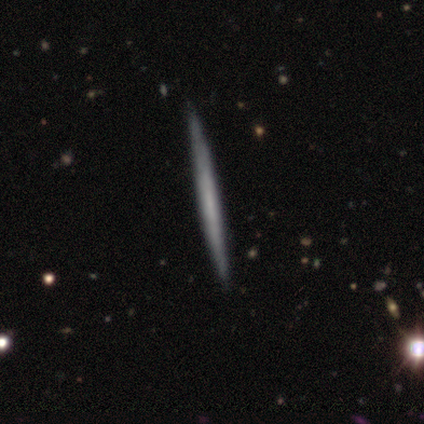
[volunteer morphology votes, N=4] Smooth or featured?
  - featured or disk: 75% *
  - smooth: 25%
  - star or artifact: 0%
Edge-on disk?
  - yes: 100% *
  - no: 0%
Edge-on bulge?
  - none: 100% *
  - boxy: 0%
  - rounded: 0%
Merging?
  - none: 100% *
  - minor disturbance: 0%
  - major disturbance: 0%
  - merger: 0%